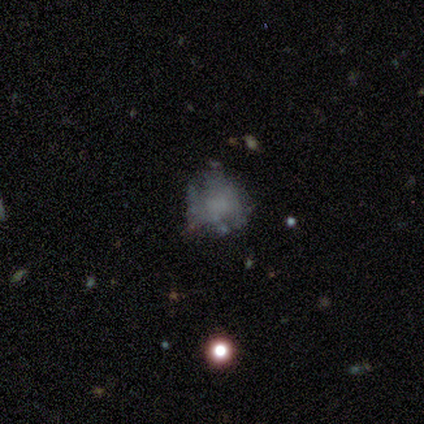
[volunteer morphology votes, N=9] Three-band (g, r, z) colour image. It shows a featured or disk galaxy (78%) with no bar (100%), no spiral arms (86%) and no central bulge (57%). Merging: minor disturbance (44%).